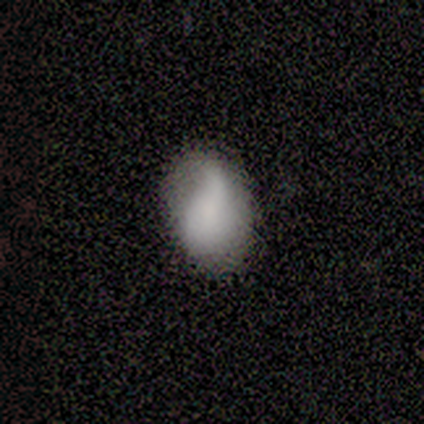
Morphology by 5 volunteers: Volunteers were most divided on "how rounded": in between: 80%, round: 20%, cigar-shaped: 0%. More confident: smooth or featured — smooth (100%); merging — none (80%).